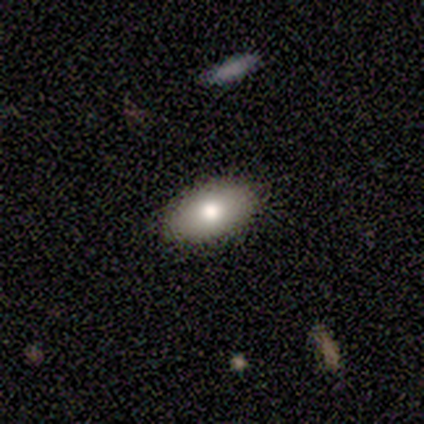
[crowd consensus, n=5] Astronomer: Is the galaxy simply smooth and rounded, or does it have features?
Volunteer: smooth — 80%.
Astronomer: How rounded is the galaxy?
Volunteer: in between — 100%.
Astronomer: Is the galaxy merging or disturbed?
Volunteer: none — 75%.